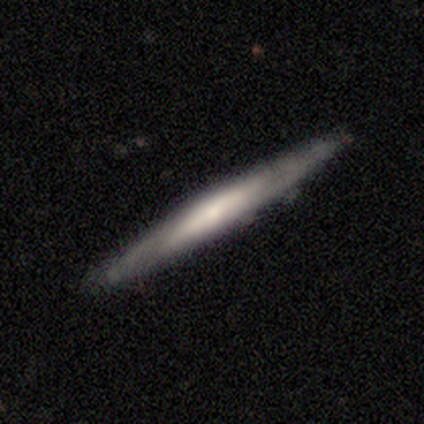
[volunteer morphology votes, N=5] smooth_or_featured: featured or disk (p=1.00)
disk_edge_on: yes (p=1.00)
edge_on_bulge: none (p=0.60) [alt: rounded p=0.40]
merging: none (p=0.80) [alt: minor disturbance p=0.20]